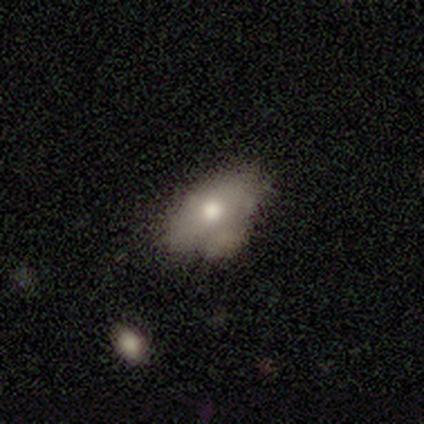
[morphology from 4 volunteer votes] Smooth or featured?
  - smooth: 100% *
  - featured or disk: 0%
  - star or artifact: 0%
How rounded?
  - in between: 100% *
  - round: 0%
  - cigar-shaped: 0%
Merging?
  - none: 50% * (tied)
  - minor disturbance: 50% * (tied)
  - major disturbance: 0%
  - merger: 0%